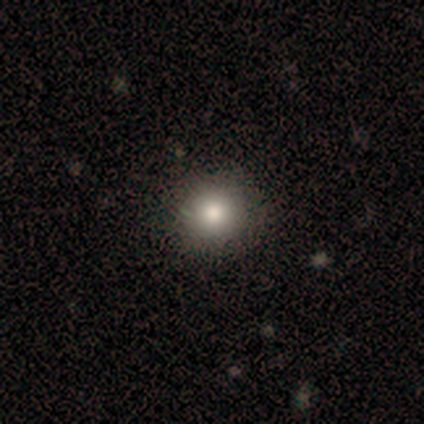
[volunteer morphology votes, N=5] Volunteers were most divided on "smooth or featured": smooth: 80%, featured or disk: 20%, star or artifact: 0%. More confident: how rounded — round (100%); merging — none (100%).